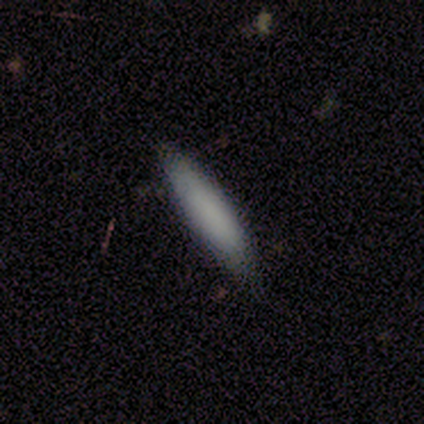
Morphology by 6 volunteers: A smooth galaxy with no disk features (100%) that is cigar-shaped (67%). Merging: none (67%).